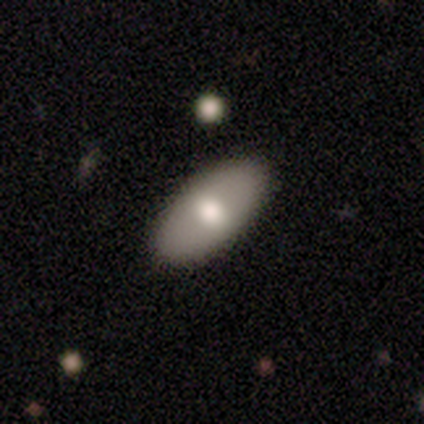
Smooth or featured? 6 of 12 (50%) said smooth. How rounded? 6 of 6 (100%) said in between. Merging? 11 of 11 (100%) said none.